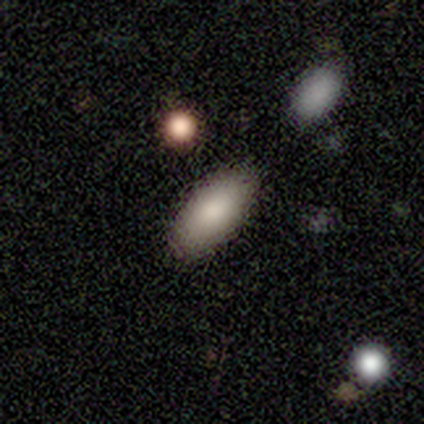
smooth 78%, star or artifact 22%, featured or disk 0%. Down the decision tree: how rounded — in between (57%); merging — none (86%).